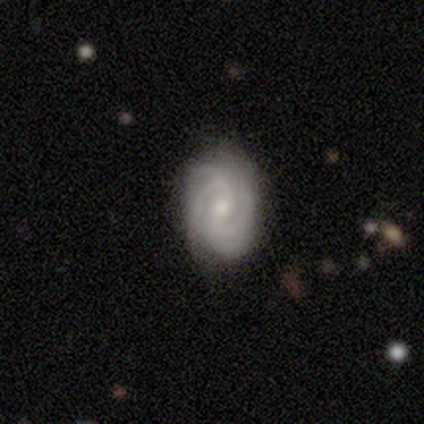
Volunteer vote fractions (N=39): A featured or disk galaxy (74%) with a weak bar (48%), 4 (32%) tight (46%, tied with medium) spiral arms (97%) and a moderate central bulge (55%). Merging: none (81%).